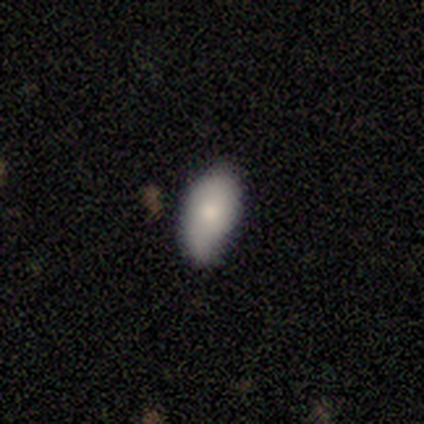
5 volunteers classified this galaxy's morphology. Volunteers were most divided on "smooth or featured": smooth: 60%, featured or disk: 20%, star or artifact: 20%. More confident: how rounded — in between (100%); merging — minor disturbance (75%).